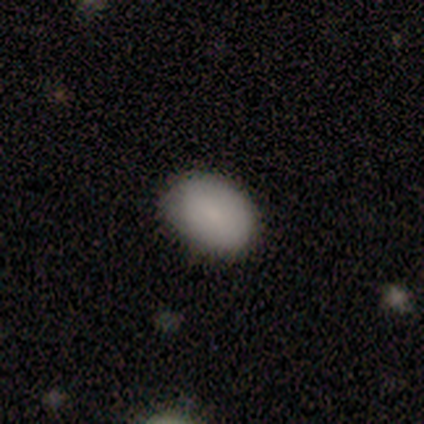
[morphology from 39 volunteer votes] Smooth or featured: smooth — 92% (featured or disk — 5%)
How rounded: in between — 78% (round — 22%)
Merging: none — 87% (minor disturbance — 13%)